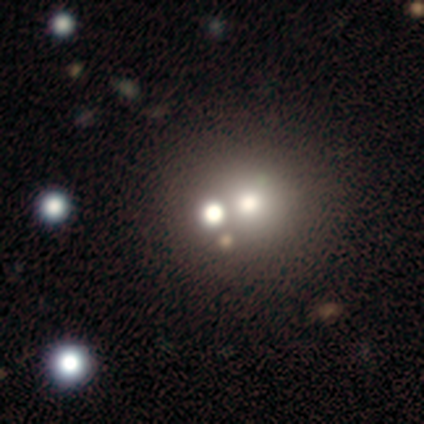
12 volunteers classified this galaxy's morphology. This appears to be a featured or disk galaxy (42%) with no bar (100%), no spiral arms (100%) and a moderate central bulge (60%). Merging: merger (62%).